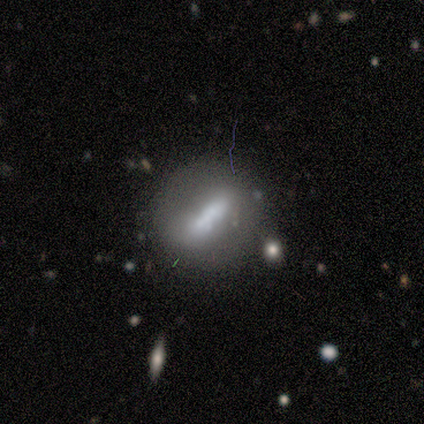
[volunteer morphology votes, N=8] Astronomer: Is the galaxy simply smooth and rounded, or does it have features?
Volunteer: smooth — 50%, tied with featured or disk at 50%.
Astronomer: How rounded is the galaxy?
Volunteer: in between — 100%.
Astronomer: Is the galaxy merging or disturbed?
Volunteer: none — 50%.